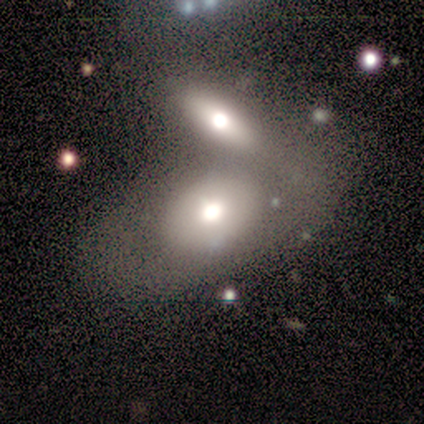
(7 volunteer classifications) Overall: smooth (71%). How rounded: in between (80%). Merging: none (43%, tied with merger).